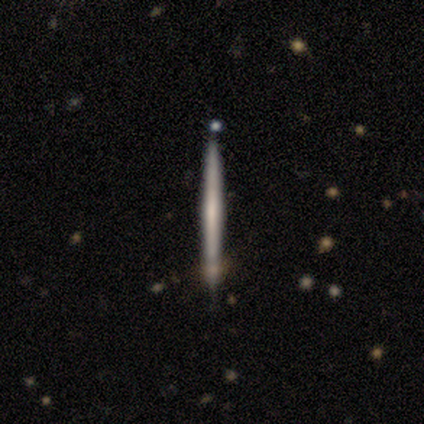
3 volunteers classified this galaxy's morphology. Overall: featured or disk (67%; smooth 33%). Edge-on disk: yes (100%). Edge-on bulge: none (50%, tied with rounded). Merging: none (100%).